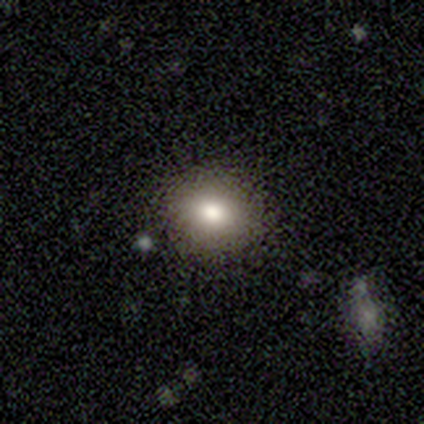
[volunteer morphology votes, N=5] Volunteers were most divided on "how rounded" (2-way tie): round: 50%, in between: 50%, cigar-shaped: 0%. More confident: merging — none (100%); smooth or featured — smooth (80%).